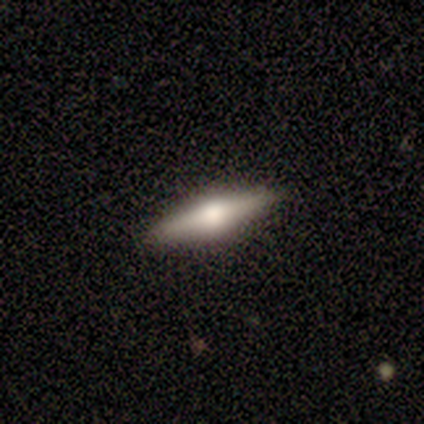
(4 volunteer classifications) This appears to be a featured or disk galaxy (75%) viewed edge-on (100%) with a rounded central bulge (100%). Merging: none (100%).